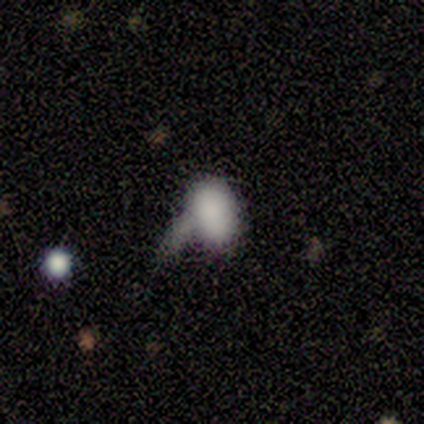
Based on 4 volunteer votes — Overall: featured or disk (50%; smooth 25%). Edge-on disk: no (100%). Bar: no (100%). Spiral arms: no (100%). Bulge size: dominant (100%). Merging: major disturbance (67%; merger 33%).